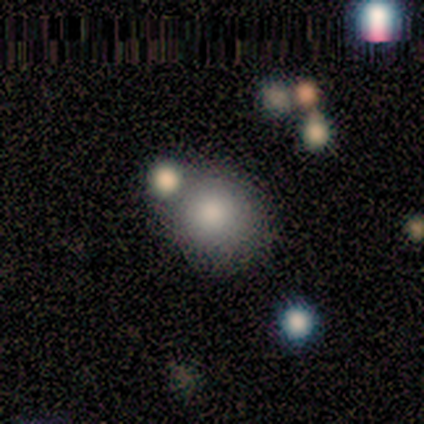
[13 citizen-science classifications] A smooth galaxy with no disk features (92%) that is round (83%).

Vote fractions:
- Smooth or featured? smooth: 92% / star or artifact: 8% / featured or disk: 0%
- How rounded? round: 83% / in between: 17% / cigar-shaped: 0%
- Merging? none: 67% / minor disturbance: 17% / merger: 17% / major disturbance: 0%